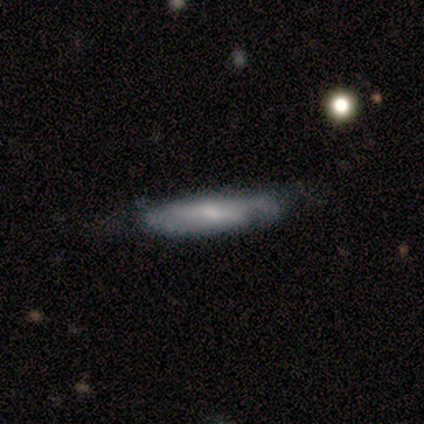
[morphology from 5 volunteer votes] featured or disk 60%, smooth 20%, star or artifact 20%. Down the decision tree: edge-on disk — yes (100%); edge-on bulge — rounded (67%); merging — none (75%).